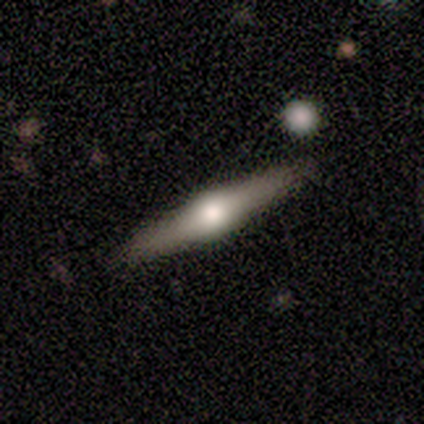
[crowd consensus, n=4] Q: Smooth or featured?
A: smooth (50%); tied with: featured or disk (50%)
Q: How rounded?
A: in between (50%); tied with: cigar-shaped (50%)
Q: Merging?
A: none (75%); runner-up: major disturbance (25%)